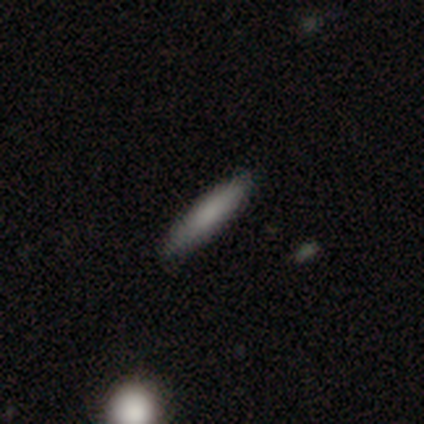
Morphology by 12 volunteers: Smooth or featured? 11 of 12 (92%) said smooth. How rounded? 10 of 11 (91%) said cigar-shaped. Merging? 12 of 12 (100%) said none.